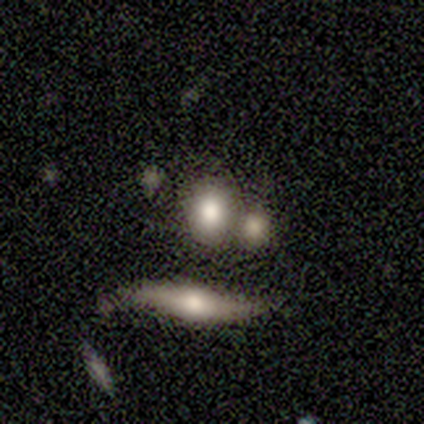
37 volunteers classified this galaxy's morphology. This is likely a smooth galaxy (70%). How rounded: possibly round (58%). Merging: possibly none (53%).